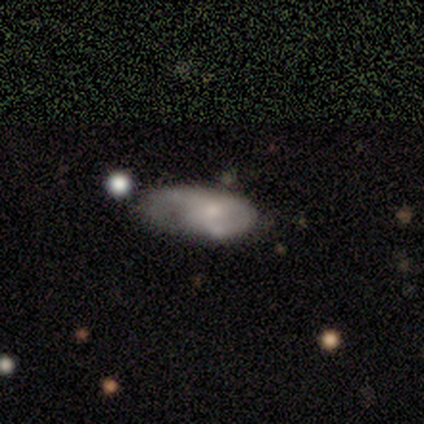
smooth_or_featured: smooth (p=0.53) [alt: featured or disk p=0.40]
how_rounded: in between (p=1.00)
merging: none (p=0.24) [alt: major disturbance p=0.22]